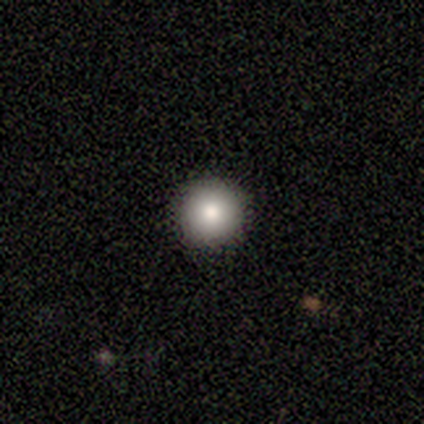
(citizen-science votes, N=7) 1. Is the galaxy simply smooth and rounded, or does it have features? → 100% smooth, 0% featured or disk, 0% star or artifact.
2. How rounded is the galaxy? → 100% round, 0% in between, 0% cigar-shaped.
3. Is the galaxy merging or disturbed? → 100% none, 0% minor disturbance, 0% major disturbance, 0% merger.